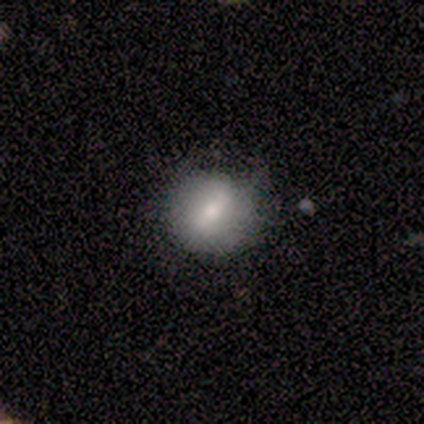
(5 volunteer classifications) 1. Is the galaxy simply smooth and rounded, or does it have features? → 100% smooth, 0% featured or disk, 0% star or artifact.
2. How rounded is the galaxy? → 100% round, 0% in between, 0% cigar-shaped.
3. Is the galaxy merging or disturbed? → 80% none, 20% minor disturbance, 0% major disturbance, 0% merger.